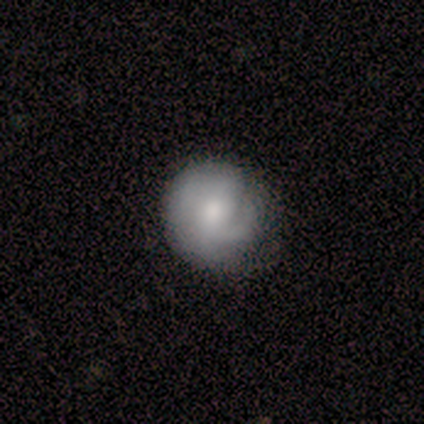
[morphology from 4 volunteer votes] This appears to be a smooth galaxy with no disk features (75%) that is round (100%). Merging: none (100%).